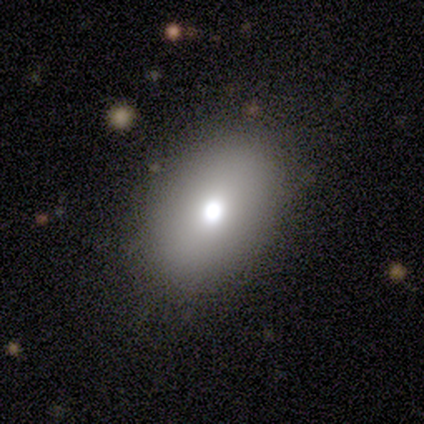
This appears to be a smooth galaxy with no disk features (80%) that is in between round and cigar-shaped (100%). Merging: none (100%).